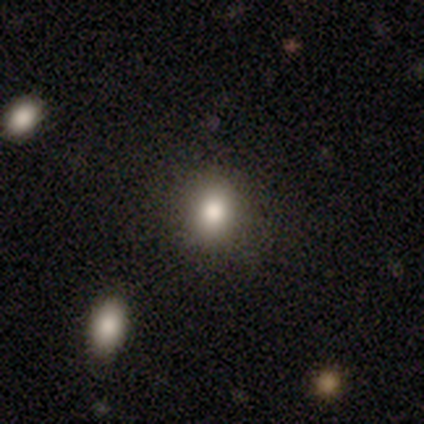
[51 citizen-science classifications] smooth_or_featured: smooth (p=0.80) [alt: featured or disk p=0.10]
how_rounded: round (p=0.76) [alt: in between p=0.24]
merging: none (p=0.91) [alt: minor disturbance p=0.04]